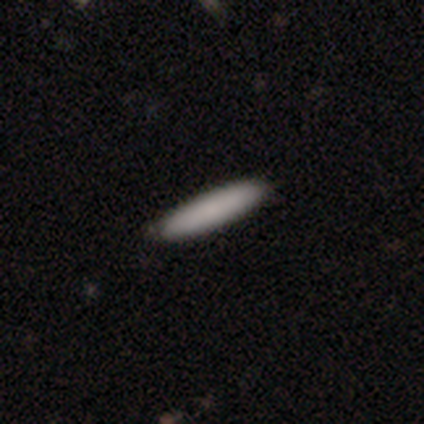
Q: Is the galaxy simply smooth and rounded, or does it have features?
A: star or artifact — 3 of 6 (50%).